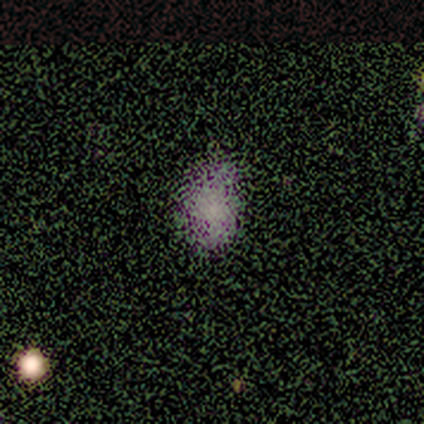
Smooth or featured: smooth — 60% (star or artifact — 40%)
How rounded: in between — 67% (round — 33%)
Merging: none — 67% (minor disturbance — 33%)